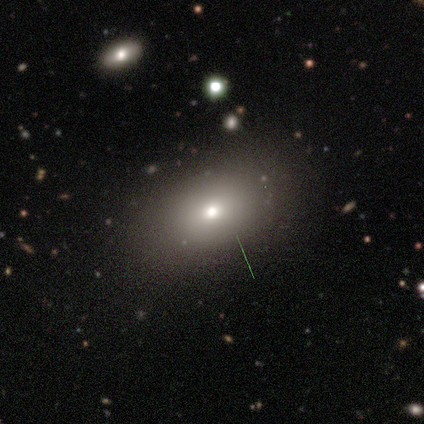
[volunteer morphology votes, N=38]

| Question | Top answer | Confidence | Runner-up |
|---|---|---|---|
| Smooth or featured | smooth | 84% | featured or disk (13%) |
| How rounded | in between | 84% | round (12%) |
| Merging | none | 73% | minor disturbance (19%) |